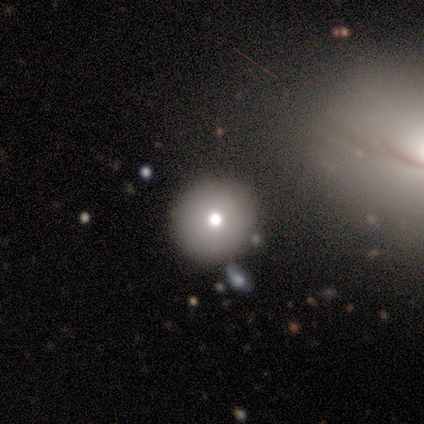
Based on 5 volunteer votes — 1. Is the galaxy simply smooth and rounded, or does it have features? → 100% smooth, 0% featured or disk, 0% star or artifact.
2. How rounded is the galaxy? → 80% round, 20% in between, 0% cigar-shaped.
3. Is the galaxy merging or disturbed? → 60% none, 20% minor disturbance, 20% major disturbance, 0% merger.